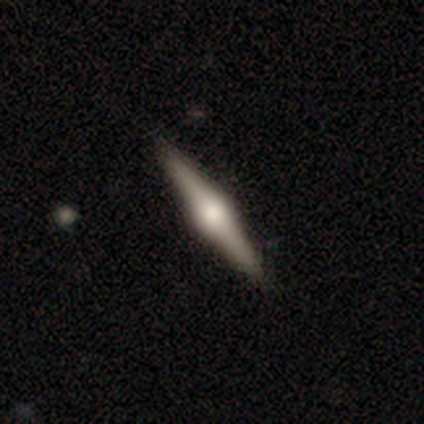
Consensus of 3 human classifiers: Volunteers were most divided on "smooth or featured": featured or disk: 67%, smooth: 33%, star or artifact: 0%. More confident: edge-on disk — yes (100%); edge-on bulge — rounded (100%); merging — none (100%).